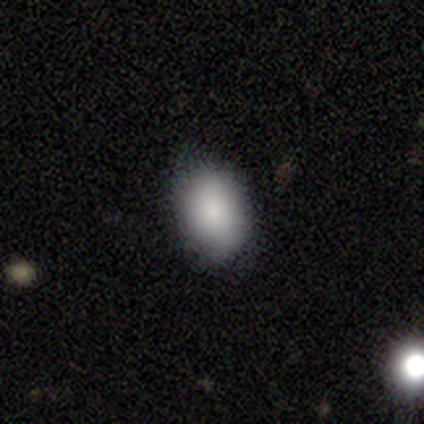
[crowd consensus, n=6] smooth 83%, featured or disk 17%, star or artifact 0%. Down the decision tree: how rounded — in between (100%); merging — none (100%).